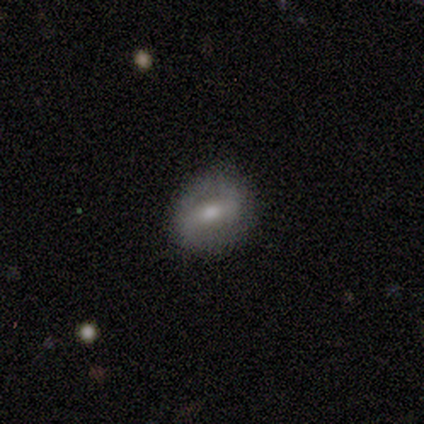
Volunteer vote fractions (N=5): Smooth or featured? 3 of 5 (60%) said smooth. How rounded? 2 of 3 (67%) said round. Merging? 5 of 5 (100%) said none.